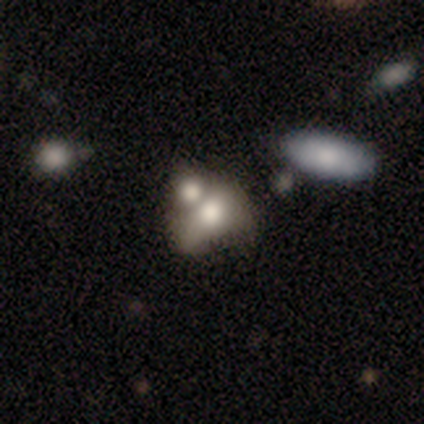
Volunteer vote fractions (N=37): smooth_or_featured: smooth (p=0.76) [alt: featured or disk p=0.19]
how_rounded: in between (p=0.68) [alt: round p=0.32]
merging: merger (p=0.66)